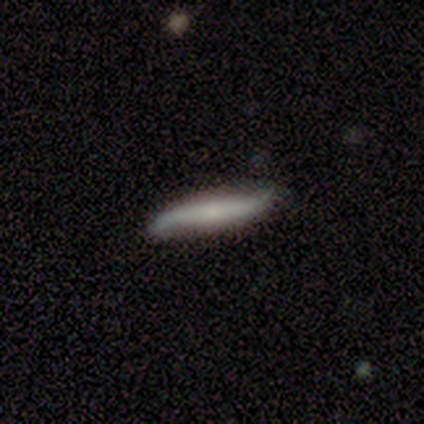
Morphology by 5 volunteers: Overall: featured or disk (60%; smooth 40%). Edge-on disk: no (67%; yes 33%). Bar: strong (100%). Spiral arms: yes (100%). Spiral arm count: 2 (100%). Spiral winding: tight (50%, tied with loose). Bulge size: small (50%, tied with none). Merging: none (100%).